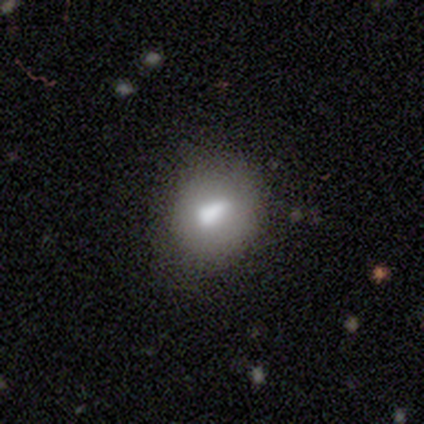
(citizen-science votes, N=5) Smooth or featured: smooth — 60% (featured or disk — 20%)
How rounded: in between — 67% (round — 33%)
Merging: minor disturbance — 100%